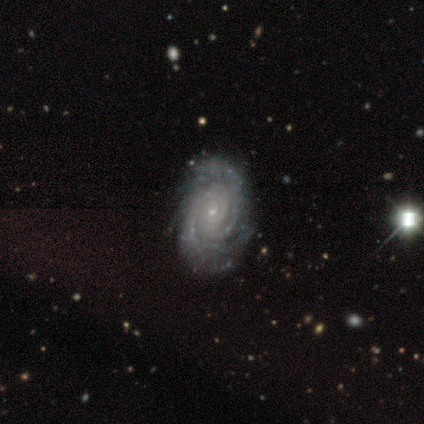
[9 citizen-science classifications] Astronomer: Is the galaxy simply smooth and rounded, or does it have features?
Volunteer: featured or disk — 100%.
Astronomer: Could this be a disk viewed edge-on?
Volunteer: no — 100%.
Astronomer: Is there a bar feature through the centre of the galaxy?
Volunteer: no — 78%.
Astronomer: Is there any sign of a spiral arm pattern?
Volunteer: yes — 100%.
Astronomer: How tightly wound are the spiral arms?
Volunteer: tight — 100%.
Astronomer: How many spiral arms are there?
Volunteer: more than 4 — 56% (runner-up: can't tell, 33%).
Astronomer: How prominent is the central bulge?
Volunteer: small — 78%.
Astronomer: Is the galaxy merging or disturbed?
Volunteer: none — 89%.